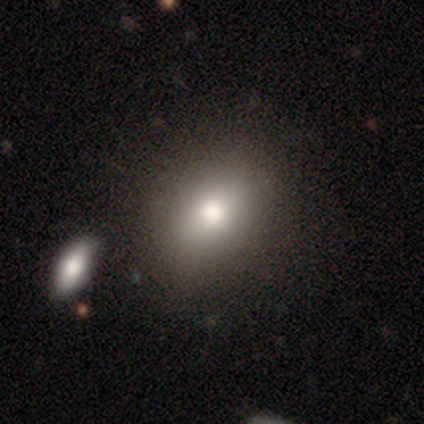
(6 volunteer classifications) Smooth or featured? 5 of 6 (83%) said smooth. How rounded? 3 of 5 (60%) said round. Merging? 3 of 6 (50%) said none.